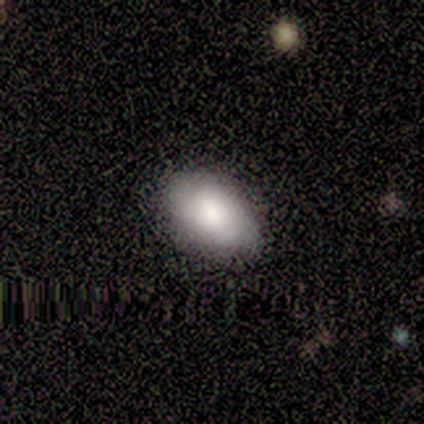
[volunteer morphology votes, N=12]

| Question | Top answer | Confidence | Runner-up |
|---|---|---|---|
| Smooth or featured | smooth | 67% | featured or disk (25%) |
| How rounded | in between | 88% | round (12%) |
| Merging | none | 91% | minor disturbance (9%) |